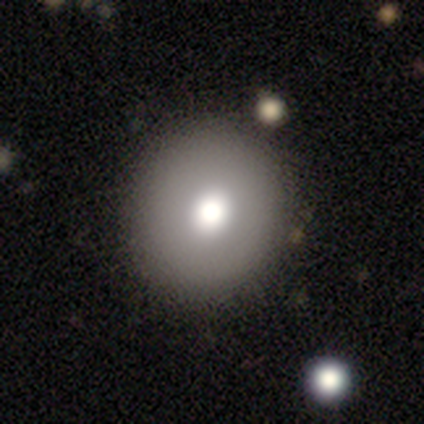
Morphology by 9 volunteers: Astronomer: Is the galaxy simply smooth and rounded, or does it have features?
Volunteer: smooth — 78%.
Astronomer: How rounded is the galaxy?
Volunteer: round — 86%.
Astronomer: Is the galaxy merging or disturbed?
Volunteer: none — 100%.